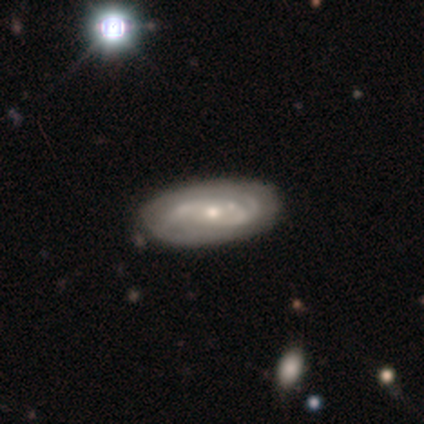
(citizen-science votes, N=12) featured or disk 83%, smooth 17%, star or artifact 0%. Down the decision tree: edge-on disk — no (90%); bar — no (89%); spiral arms — yes (78%); spiral arm count — 2 (57%); spiral winding — tight (43%); bulge size — moderate (44%, tied with small); merging — none (58%).